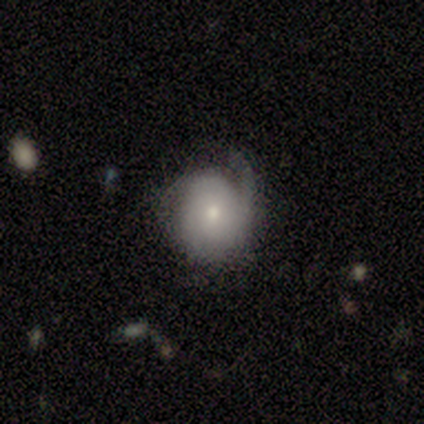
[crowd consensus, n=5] This appears to be a smooth galaxy with no disk features (40%, tied with featured or disk) that is round (100%). Merging: minor disturbance (50%).